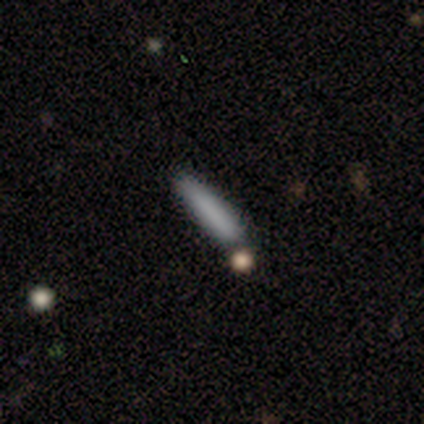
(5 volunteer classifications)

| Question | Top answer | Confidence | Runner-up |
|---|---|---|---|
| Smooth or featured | smooth | 100% | — |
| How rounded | cigar-shaped | 100% | — |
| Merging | none | 100% | — |